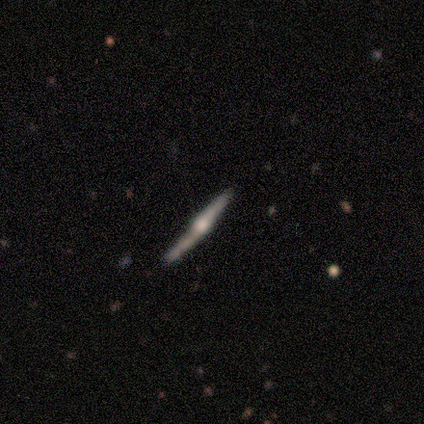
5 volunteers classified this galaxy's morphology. This appears to be a featured or disk galaxy (60%) viewed edge-on (100%) with a rounded central bulge (100%). Merging: none (40%, tied with minor disturbance).